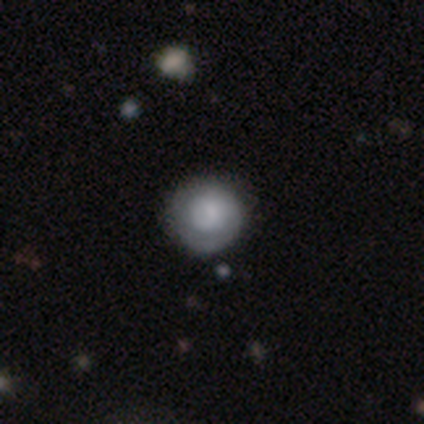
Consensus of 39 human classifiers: smooth_or_featured: smooth (p=0.46) [tied with: featured or disk p=0.46]
how_rounded: round (p=0.94) [alt: in between p=0.06]
merging: none (p=0.86) [alt: minor disturbance p=0.11]